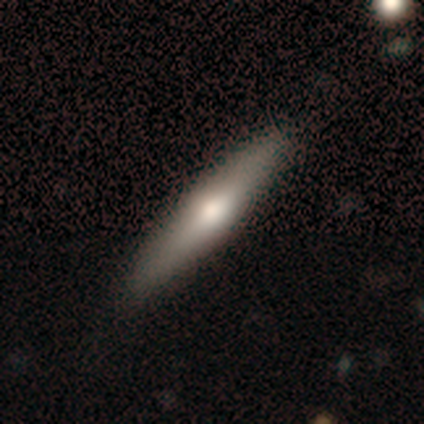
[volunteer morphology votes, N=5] Volunteers were most divided on "how rounded": cigar-shaped: 80%, round: 20%, in between: 0%. More confident: smooth or featured — smooth (100%); merging — none (80%).